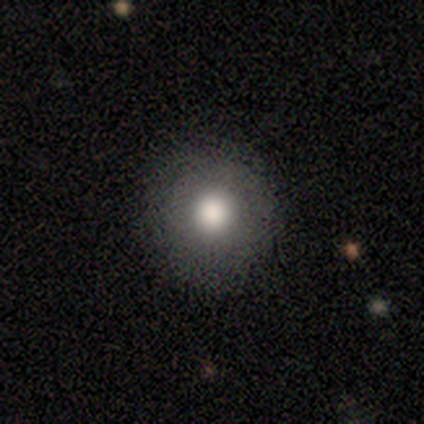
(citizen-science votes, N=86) Q: Smooth or featured?
A: smooth (80%); runner-up: star or artifact (12%)
Q: How rounded?
A: round (97%); runner-up: in between (3%)
Q: Merging?
A: none (93%); runner-up: minor disturbance (4%)